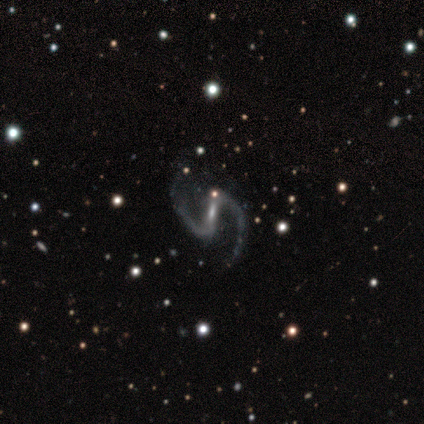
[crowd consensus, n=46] A featured or disk galaxy (96%) with a strong bar (66%), 2 (100%) loose (81%) spiral arms (95%) and a small central bulge (55%).

Vote fractions:
- Smooth or featured? featured or disk: 96% / smooth: 2% / star or artifact: 2%
- Edge-on disk? no: 100% / yes: 0%
- Bar? strong: 66% / weak: 32% / no: 2%
- Spiral arms? yes: 95% / no: 5%
- Spiral winding? loose: 81% / medium: 19% / tight: 0%
- Spiral arm count? 2: 100% / 1: 0% / 3: 0% / 4: 0% / more than 4: 0% / can't tell: 0%
- Bulge size? small: 55% / moderate: 23% / none: 20% / large: 2% / dominant: 0%
- Merging? none: 78% / minor disturbance: 13% / major disturbance: 9% / merger: 0%